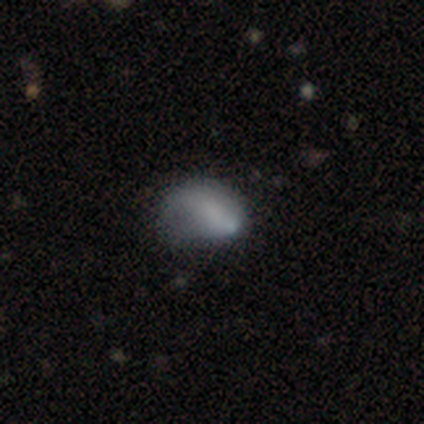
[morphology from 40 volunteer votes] Q: Smooth or featured?
A: smooth (62%); runner-up: featured or disk (30%)
Q: How rounded?
A: in between (80%); runner-up: round (20%)
Q: Merging?
A: minor disturbance (41%); runner-up: none (30%)